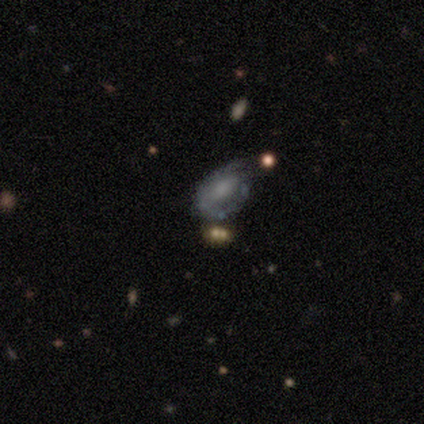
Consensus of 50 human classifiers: smooth-or-featured: featured or disk: 52% | smooth: 44% | star or artifact: 4%
  disk-edge-on: no: 100% | yes: 0%
    bar: no: 77% | strong: 12% | weak: 12%
    has-spiral-arms: yes: 54% | no: 46%
      spiral-winding: tight: 64% | medium: 29% | loose: 7%
      spiral-arm-count: can't tell: 50% | 2: 29% | 1: 14% | 3: 7% | 4: 0% | more than 4: 0%
    bulge-size: none: 42% | small: 27% | moderate: 19% | large: 12% | dominant: 0%
  merging: none: 54% | minor disturbance: 31% | major disturbance: 12% | merger: 2%